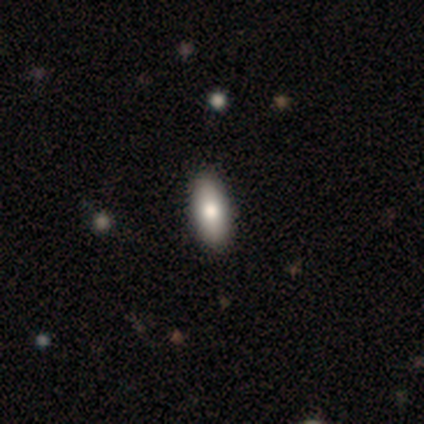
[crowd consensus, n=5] This appears to be a smooth galaxy with no disk features (80%) that is in between round and cigar-shaped (75%). Merging: none (80%).